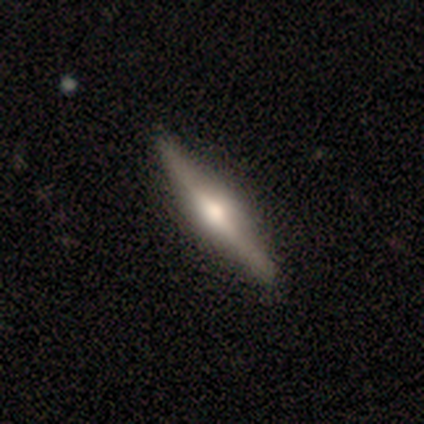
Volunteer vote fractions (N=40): Overall: featured or disk (68%). Edge-on disk: yes (100%). Edge-on bulge: rounded (93%). Merging: none (58%).